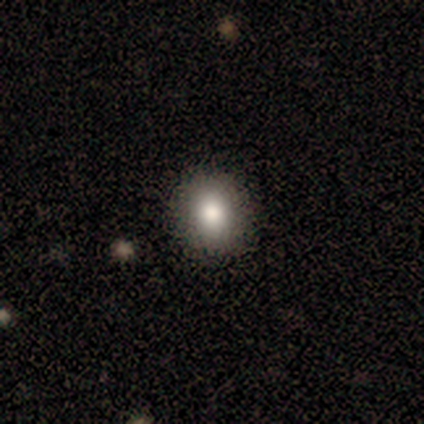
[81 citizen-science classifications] smooth 83%, featured or disk 9%, star or artifact 9%. Down the decision tree: how rounded — round (64%); merging — none (92%).